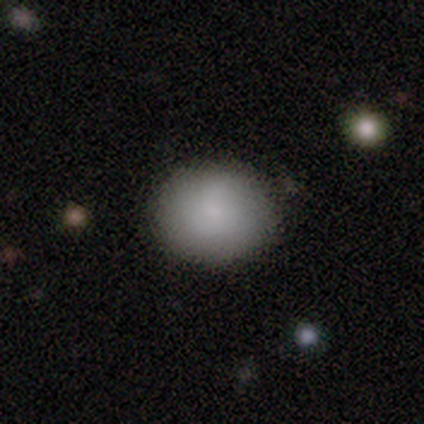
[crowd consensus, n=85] Morphology: type=smooth (87%); roundness=round (64%); merging=none (80%).